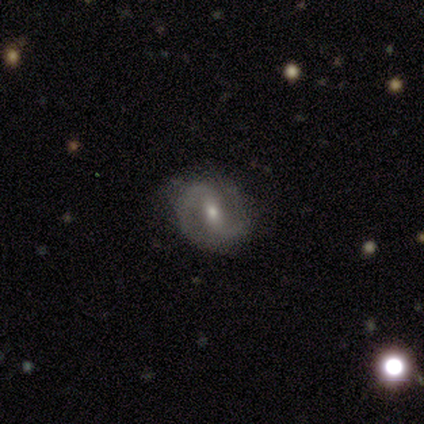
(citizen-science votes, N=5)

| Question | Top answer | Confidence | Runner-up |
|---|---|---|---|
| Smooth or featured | featured or disk | 100% | — |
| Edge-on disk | no | 100% | — |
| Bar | weak | 60% | strong (20%) |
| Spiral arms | yes | 100% | — |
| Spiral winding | medium | 40% | tied: loose (40%) |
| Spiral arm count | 2 | 100% | — |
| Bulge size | small | 80% | moderate (20%) |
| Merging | none | 100% | — |